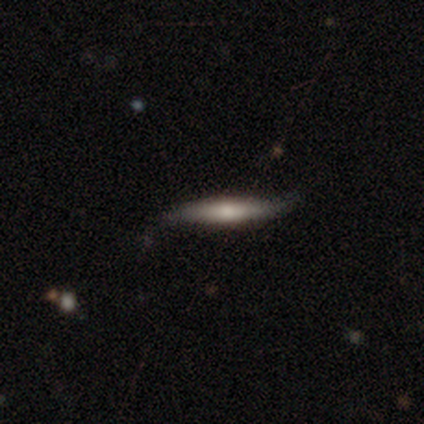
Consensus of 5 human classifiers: Morphology: type=smooth (40%, tied with featured or disk); roundness=cigar-shaped (100%); merging=none (50%).